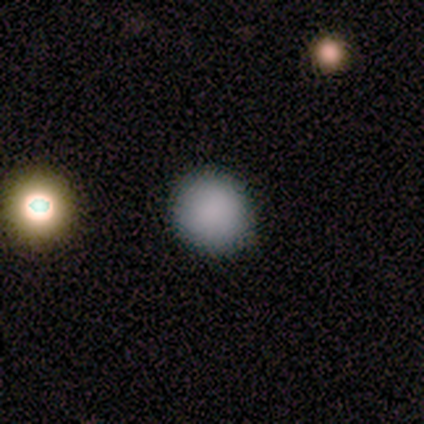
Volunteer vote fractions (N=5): smooth 80%, star or artifact 20%, featured or disk 0%. Down the decision tree: how rounded — round (100%); merging — none (75%).